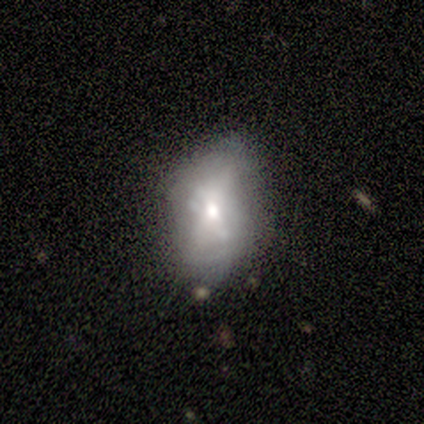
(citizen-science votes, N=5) Volunteers were most divided on "merging": none: 60%, minor disturbance: 20%, major disturbance: 20%, merger: 0%. More confident: smooth or featured — smooth (100%); how rounded — in between (100%).